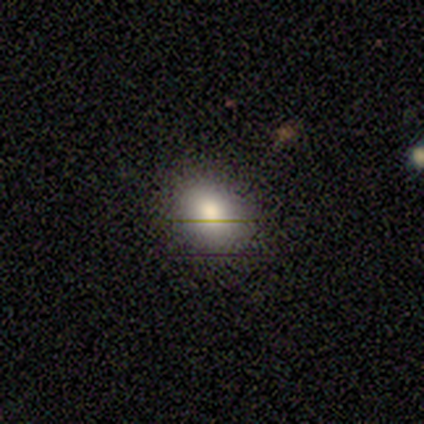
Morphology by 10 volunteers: Smooth or featured: smooth — 80% (star or artifact — 20%)
How rounded: in between — 88% (round — 12%)
Merging: none — 88% (minor disturbance — 12%)